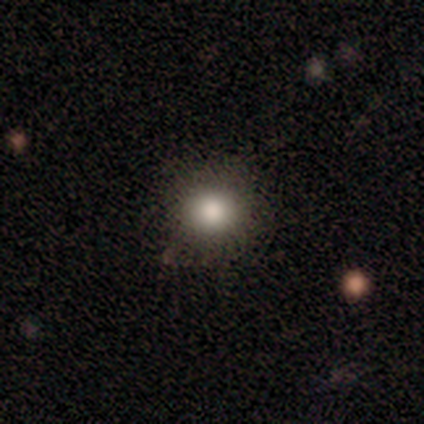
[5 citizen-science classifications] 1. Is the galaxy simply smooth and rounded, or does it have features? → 80% smooth, 20% star or artifact, 0% featured or disk.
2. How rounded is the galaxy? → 100% round, 0% in between, 0% cigar-shaped.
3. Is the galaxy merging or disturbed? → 100% none, 0% minor disturbance, 0% major disturbance, 0% merger.